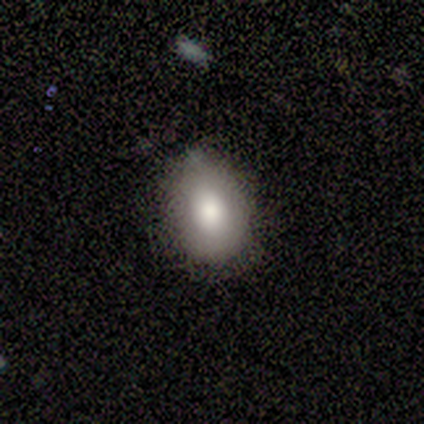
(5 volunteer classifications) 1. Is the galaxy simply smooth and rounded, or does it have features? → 100% smooth, 0% featured or disk, 0% star or artifact.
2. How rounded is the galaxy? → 100% in between, 0% round, 0% cigar-shaped.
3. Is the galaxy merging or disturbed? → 60% none, 40% minor disturbance, 0% major disturbance, 0% merger.